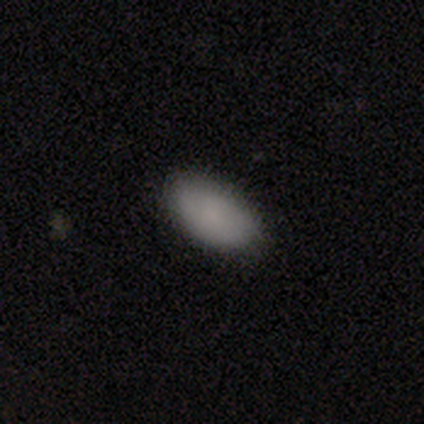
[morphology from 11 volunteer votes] Smooth or featured?
  - smooth: 91% *
  - star or artifact: 9%
  - featured or disk: 0%
How rounded?
  - in between: 100% *
  - round: 0%
  - cigar-shaped: 0%
Merging?
  - none: 90% *
  - minor disturbance: 10%
  - major disturbance: 0%
  - merger: 0%